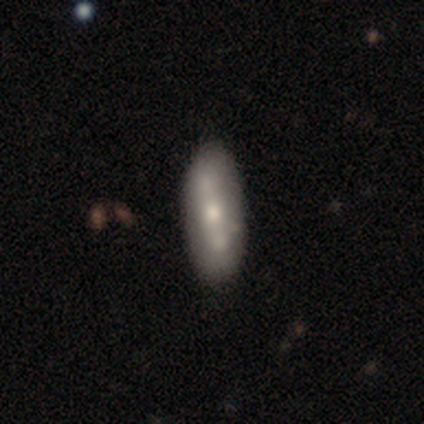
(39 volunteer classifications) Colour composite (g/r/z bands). It shows a featured or disk galaxy (62%) with a strong bar (35%, tied with no), no spiral arms (76%) and a moderate central bulge (47%, tied with small). Merging: none (67%).